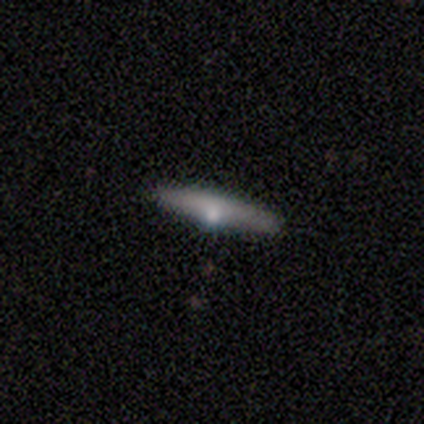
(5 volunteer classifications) Morphology: type=smooth (60%); roundness=cigar-shaped (100%); merging=none (80%).